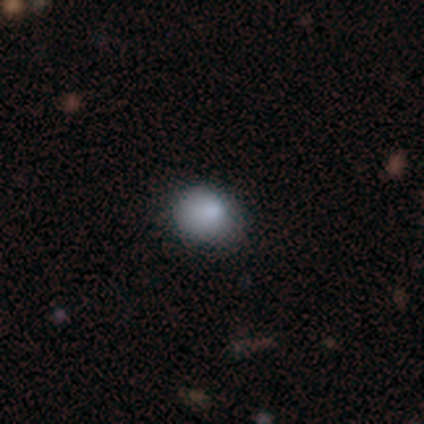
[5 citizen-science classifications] Q: Smooth or featured?
A: smooth (80%); runner-up: featured or disk (20%)
Q: How rounded?
A: round (75%); runner-up: in between (25%)
Q: Merging?
A: none (60%); runner-up: minor disturbance (20%)